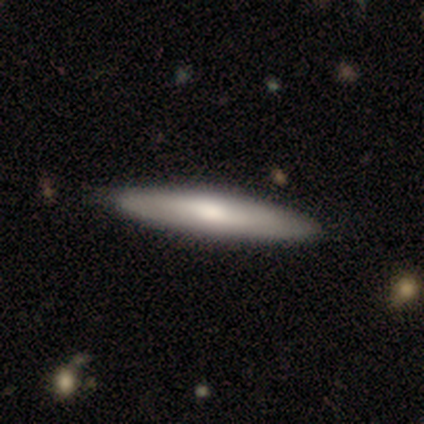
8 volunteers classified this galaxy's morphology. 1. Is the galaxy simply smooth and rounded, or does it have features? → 50% smooth (tied), 50% featured or disk (tied), 0% star or artifact.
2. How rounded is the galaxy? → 75% cigar-shaped, 25% in between, 0% round.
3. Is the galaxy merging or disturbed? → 88% none, 12% minor disturbance, 0% major disturbance, 0% merger.